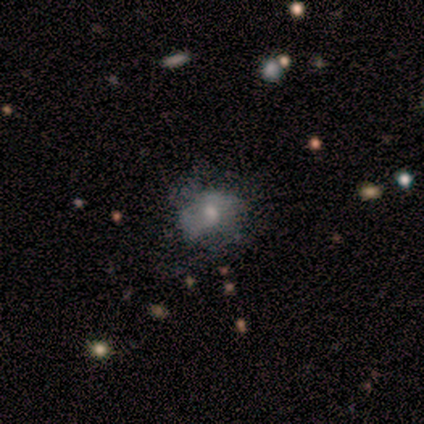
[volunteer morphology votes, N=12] Overall: featured or disk (67%). Edge-on disk: no (88%). Bar: no (86%). Spiral arms: no (57%; yes 43%). Bulge size: moderate (57%; small 43%). Merging: none (55%; major disturbance 27%).